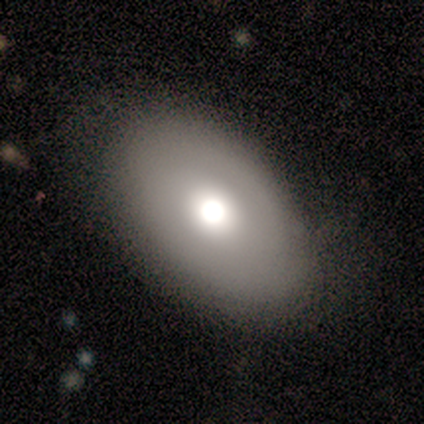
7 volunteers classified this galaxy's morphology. Volunteers were most divided on "spiral arms" (2-way tie): yes: 50%, no: 50%; "spiral arm count" (2-way tie): 2: 50%, can't tell: 50%, 1: 0%, 3: 0%, 4: 0%, more than 4: 0%. More confident: edge-on disk — no (100%); bar — no (100%); spiral winding — tight (100%); merging — none (67%); smooth or featured — featured or disk (57%); bulge size — moderate (50%).